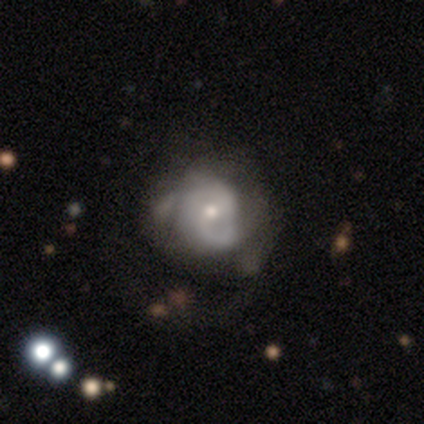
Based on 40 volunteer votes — A featured or disk galaxy (80%) with no bar (61%), 2 (54%) tight (46%) spiral arms (84%) and a moderate central bulge (55%). Merging: none (24%).